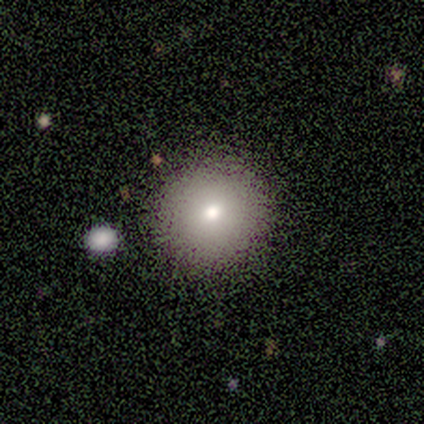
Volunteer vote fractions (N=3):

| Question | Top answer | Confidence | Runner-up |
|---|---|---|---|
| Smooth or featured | smooth | 67% | star or artifact (33%) |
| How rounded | round | 100% | — |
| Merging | none | 50% | tied: major disturbance (50%) |